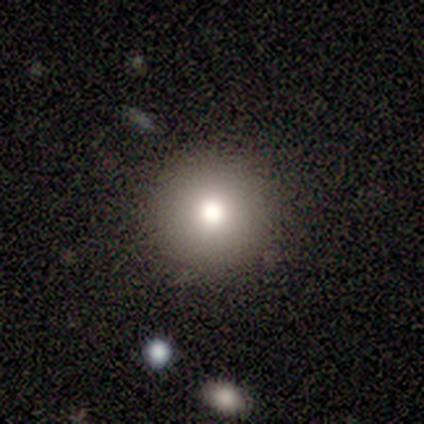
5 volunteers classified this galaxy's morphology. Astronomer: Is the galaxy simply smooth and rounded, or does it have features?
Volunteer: smooth — 80%.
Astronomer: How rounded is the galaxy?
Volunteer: round — 100%.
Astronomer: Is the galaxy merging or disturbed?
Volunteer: none — 100%.